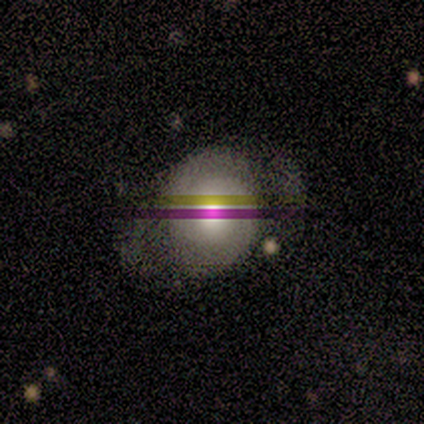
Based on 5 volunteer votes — Morphology: type=featured or disk (60%); edge-on=no (67%); bar=no (100%); spiral arms=yes (100%); winding=tight (100%); arm count=2 (50%, tied with can't tell); bulge=large (50%, tied with moderate); merging=minor disturbance (80%).